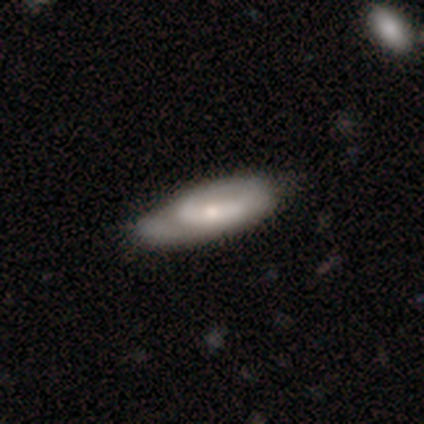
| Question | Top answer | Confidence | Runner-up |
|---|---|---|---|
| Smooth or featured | featured or disk | 50% | smooth (45%) |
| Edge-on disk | no | 89% | yes (11%) |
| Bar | no | 47% | weak (41%) |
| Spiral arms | yes | 76% | no (24%) |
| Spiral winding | tight | 62% | medium (23%) |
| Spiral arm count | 2 | 38% | 1 (31%) |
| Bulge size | small | 65% | moderate (35%) |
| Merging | none | 50% | minor disturbance (39%) |